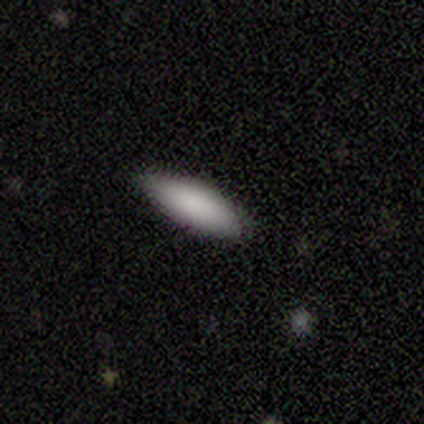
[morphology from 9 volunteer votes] smooth-or-featured: smooth: 100% | featured or disk: 0% | star or artifact: 0%
  how-rounded: cigar-shaped: 56% | in between: 44% | round: 0%
  merging: none: 78% | minor disturbance: 22% | major disturbance: 0% | merger: 0%